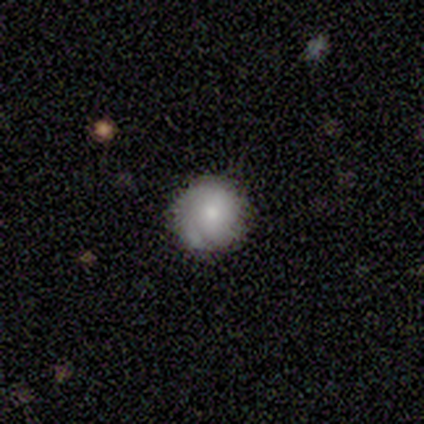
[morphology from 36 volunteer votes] This is possibly a smooth galaxy (50%). How rounded: clearly round (94%). Merging: clearly none (83%).